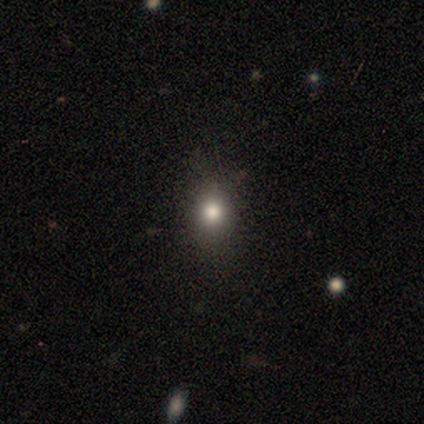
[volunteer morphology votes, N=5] Q: Smooth or featured?
A: smooth (80%); runner-up: star or artifact (20%)
Q: How rounded?
A: round (75%); runner-up: in between (25%)
Q: Merging?
A: none (100%)